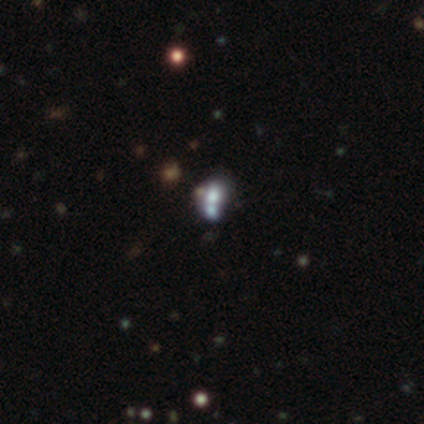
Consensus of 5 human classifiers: Volunteers were most divided on "smooth or featured": smooth: 60%, star or artifact: 40%, featured or disk: 0%. More confident: merging — merger (100%); how rounded — in between (67%).